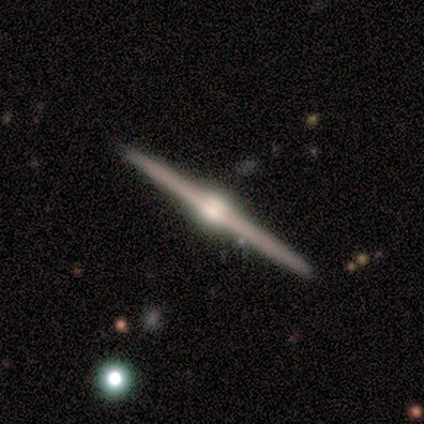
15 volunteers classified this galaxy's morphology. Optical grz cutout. It shows a featured or disk galaxy (80%) viewed edge-on (100%) with a rounded central bulge (100%). Merging: none (100%).